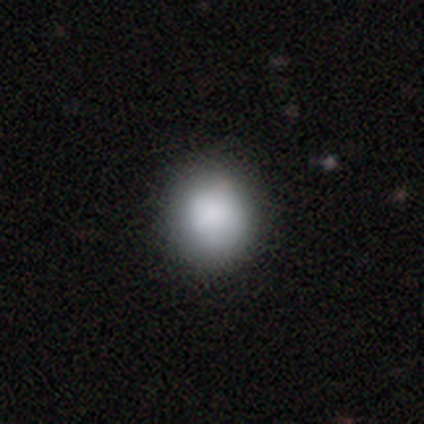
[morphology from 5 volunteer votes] smooth-or-featured: smooth: 80% | star or artifact: 20% | featured or disk: 0%
  how-rounded: round: 100% | in between: 0% | cigar-shaped: 0%
  merging: none: 75% | minor disturbance: 25% | major disturbance: 0% | merger: 0%